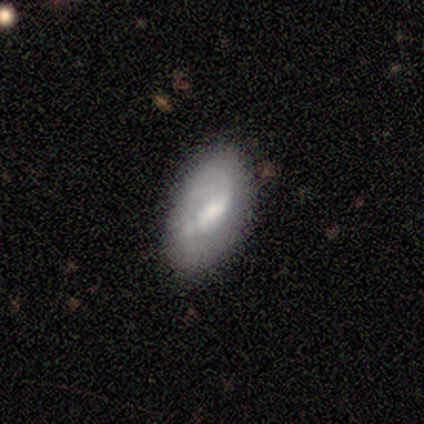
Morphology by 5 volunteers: smooth 80%, star or artifact 20%, featured or disk 0%. Down the decision tree: how rounded — in between (100%); merging — none (100%).